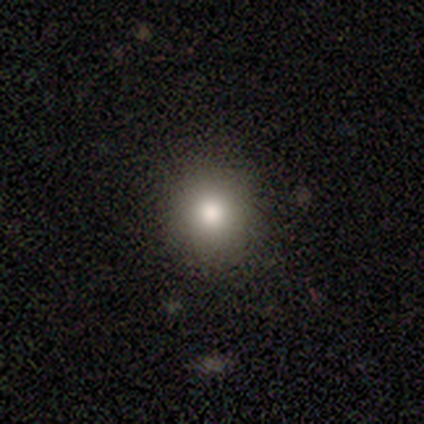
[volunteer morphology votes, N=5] This is clearly a smooth galaxy (100%). How rounded: clearly round (100%). Merging: clearly none (80%).